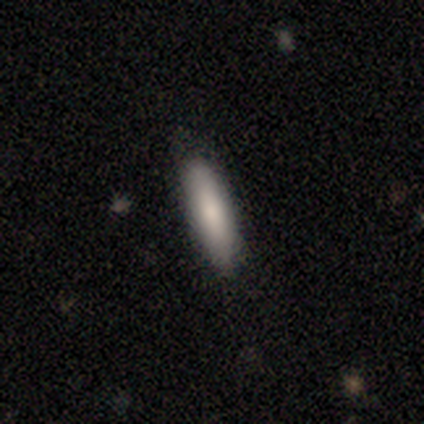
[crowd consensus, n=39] A smooth galaxy with no disk features (67%) that is cigar-shaped (85%). Merging: none (72%).